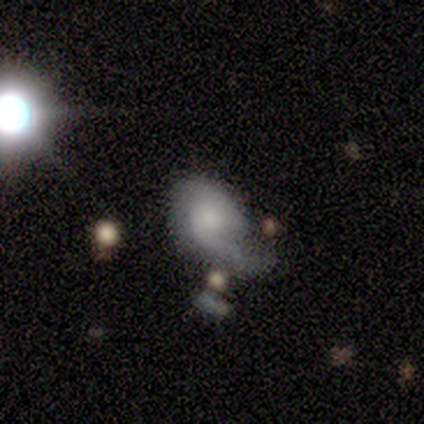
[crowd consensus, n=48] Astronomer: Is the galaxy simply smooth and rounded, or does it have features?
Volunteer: featured or disk — 56% (runner-up: smooth, 42%).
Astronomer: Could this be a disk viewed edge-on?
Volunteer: no — 93%.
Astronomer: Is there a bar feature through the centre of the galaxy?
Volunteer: no — 76%.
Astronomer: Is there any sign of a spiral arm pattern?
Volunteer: yes — 88%.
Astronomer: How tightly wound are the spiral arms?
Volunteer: loose — 55%.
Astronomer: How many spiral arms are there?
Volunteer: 1 — 64%.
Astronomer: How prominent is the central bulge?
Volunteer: small — 48%.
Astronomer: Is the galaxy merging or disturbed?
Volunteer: major disturbance — 51% (runner-up: minor disturbance, 28%).